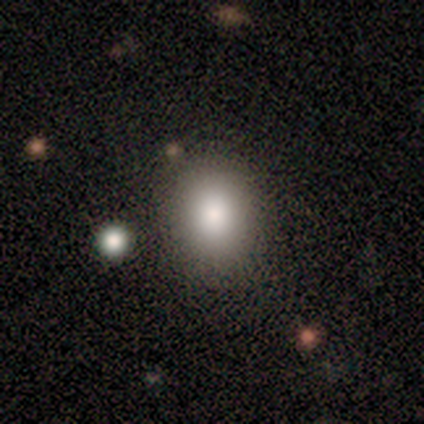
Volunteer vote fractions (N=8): Volunteers were most divided on "how rounded": round: 67%, in between: 33%, cigar-shaped: 0%. More confident: merging — none (83%); smooth or featured — smooth (75%).